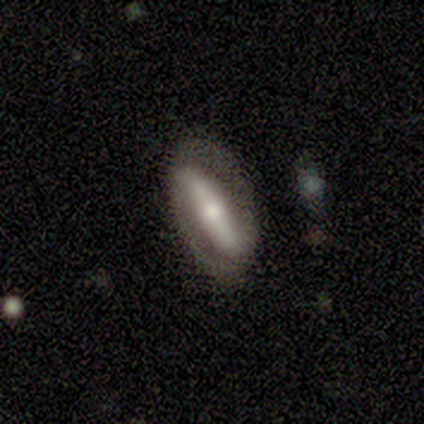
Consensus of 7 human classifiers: A featured or disk galaxy (57%) with no bar (67%), 2 (100%) medium (50%, tied with loose) spiral arms (67%) and a moderate central bulge (67%).

Vote fractions:
- Smooth or featured? featured or disk: 57% / smooth: 43% / star or artifact: 0%
- Edge-on disk? no: 75% / yes: 25%
- Bar? no: 67% / strong: 33% / weak: 0%
- Spiral arms? yes: 67% / no: 33%
- Spiral winding? medium: 50% (tied) / loose: 50% (tied) / tight: 0%
- Spiral arm count? 2: 100% / 1: 0% / 3: 0% / 4: 0% / more than 4: 0% / can't tell: 0%
- Bulge size? moderate: 67% / small: 33% / dominant: 0% / large: 0% / none: 0%
- Merging? none: 71% / minor disturbance: 14% / major disturbance: 14% / merger: 0%